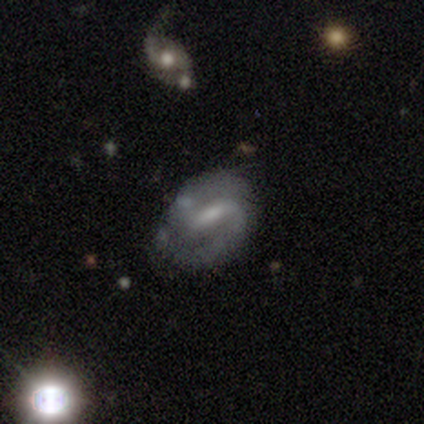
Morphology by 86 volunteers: Overall: featured or disk (81%). Edge-on disk: no (96%). Bar: weak (52%; strong 36%). Spiral arms: yes (90%). Spiral arm count: 2 (85%). Spiral winding: medium (60%; tight 25%). Bulge size: small (42%; moderate 33%). Merging: none (74%).